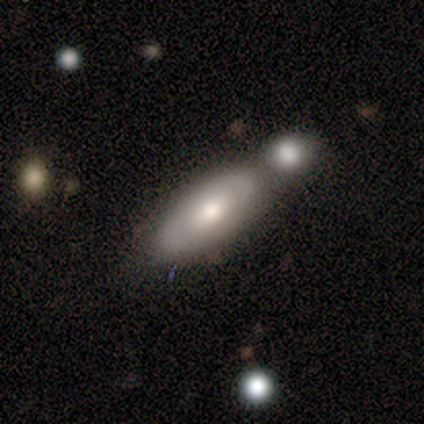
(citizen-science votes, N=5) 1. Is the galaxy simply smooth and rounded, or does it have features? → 60% smooth, 40% featured or disk, 0% star or artifact.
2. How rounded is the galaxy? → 67% in between, 33% cigar-shaped, 0% round.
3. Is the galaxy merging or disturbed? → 100% merger, 0% none, 0% minor disturbance, 0% major disturbance.